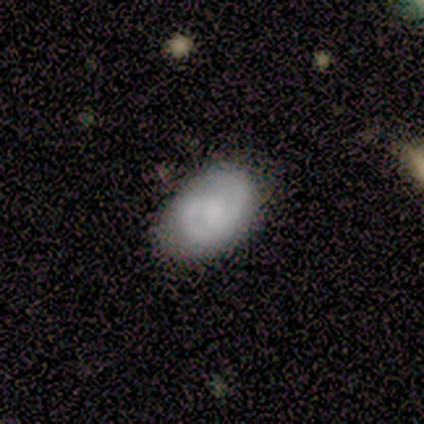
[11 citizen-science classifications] Smooth or featured?
  - smooth: 55% *
  - featured or disk: 45%
  - star or artifact: 0%
How rounded?
  - in between: 100% *
  - round: 0%
  - cigar-shaped: 0%
Merging?
  - none: 64% *
  - minor disturbance: 27%
  - major disturbance: 9%
  - merger: 0%